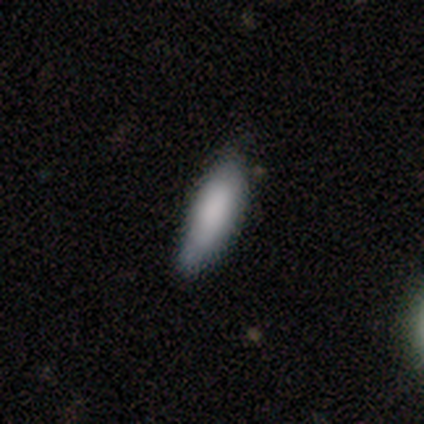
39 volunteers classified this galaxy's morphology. This is clearly a smooth galaxy (82%). How rounded: possibly cigar-shaped (53%). Merging: likely none (73%).